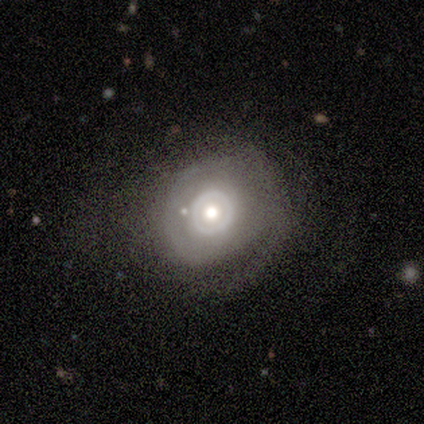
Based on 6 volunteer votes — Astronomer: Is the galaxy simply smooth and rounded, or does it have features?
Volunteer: featured or disk — 83%.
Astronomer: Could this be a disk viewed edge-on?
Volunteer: no — 80%.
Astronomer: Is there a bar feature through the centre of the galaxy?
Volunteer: no — 100%.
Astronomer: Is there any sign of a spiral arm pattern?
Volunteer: no — 75%.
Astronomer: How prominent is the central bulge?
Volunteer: moderate — 100%.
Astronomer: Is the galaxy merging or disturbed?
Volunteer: none — 83%.